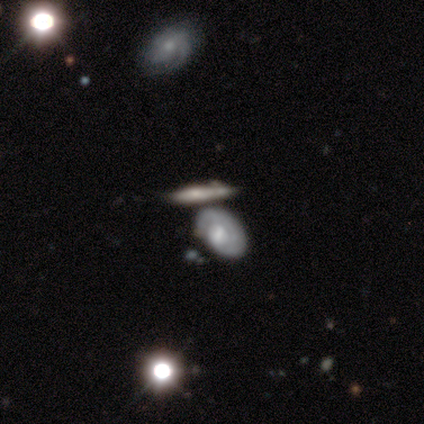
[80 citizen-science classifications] This appears to be a featured or disk galaxy (68%) with no bar (84%), 1 (44%) tight (76%) spiral arms (68%) and a large central bulge (32%, tied with moderate). Merging: merger (46%).